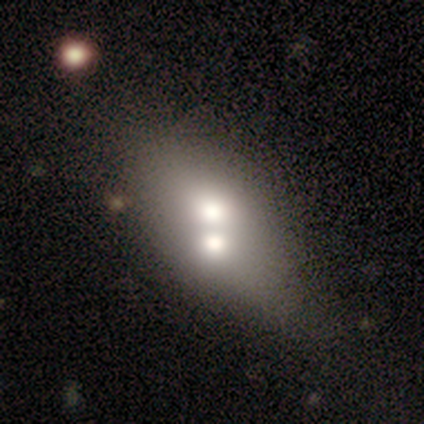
This appears to be a smooth galaxy with no disk features (80%) that is in between round and cigar-shaped (100%). Merging: merger (60%).